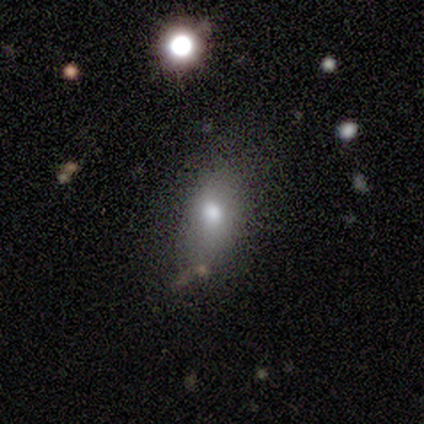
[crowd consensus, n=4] smooth_or_featured: smooth (p=1.00)
how_rounded: in between (p=0.75) [alt: round p=0.25]
merging: minor disturbance (p=0.50) [alt: none p=0.25]